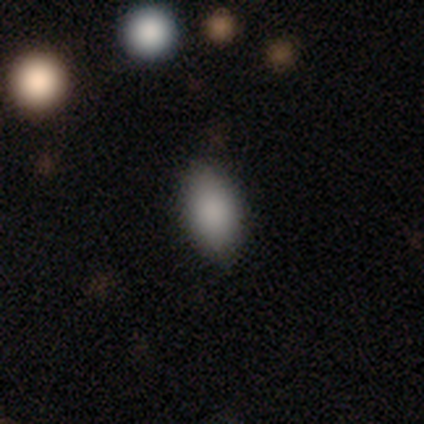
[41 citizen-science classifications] Overall: smooth (85%). How rounded: in between (97%). Merging: none (92%).